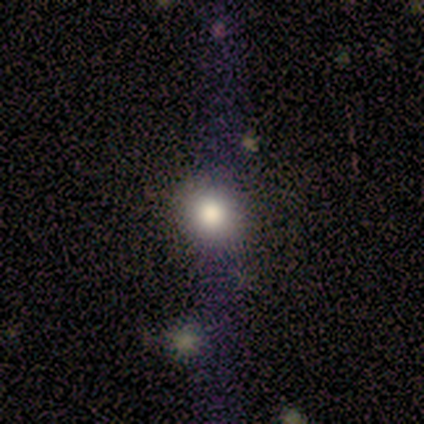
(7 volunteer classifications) Smooth or featured? 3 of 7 (43%) said featured or disk. Edge-on disk? 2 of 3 (67%) said no. Bar? 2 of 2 (100%) said no. Spiral arms? 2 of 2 (100%) said no. Bulge size? 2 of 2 (100%) said moderate. Merging? 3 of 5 (60%) said none.